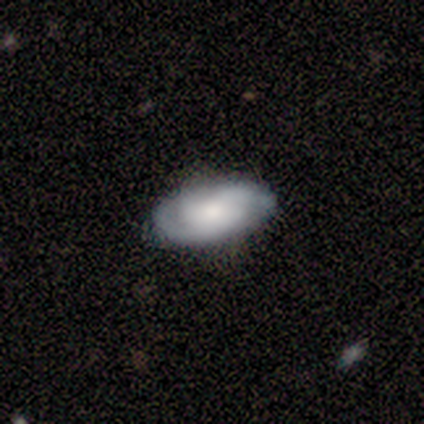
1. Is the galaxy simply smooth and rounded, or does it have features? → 60% smooth, 40% featured or disk, 0% star or artifact.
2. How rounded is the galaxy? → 100% in between, 0% round, 0% cigar-shaped.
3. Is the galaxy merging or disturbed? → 80% none, 20% merger, 0% minor disturbance, 0% major disturbance.